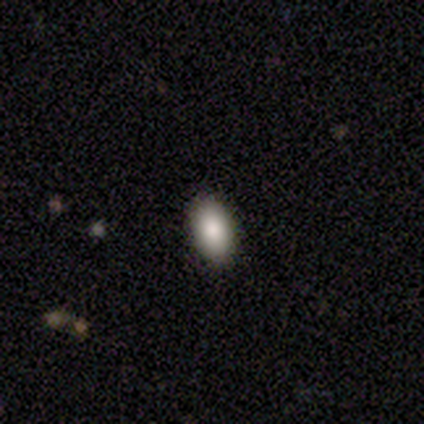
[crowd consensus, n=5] Smooth or featured? smooth (100%)
How rounded? in between (100%)
Merging? none (100%)